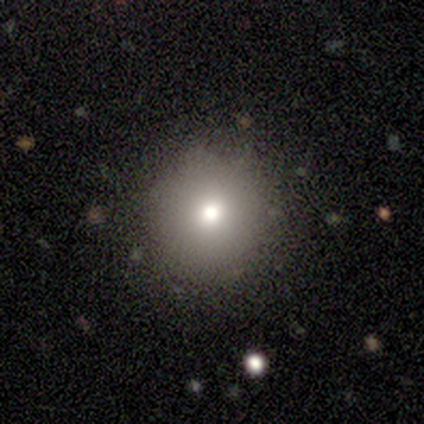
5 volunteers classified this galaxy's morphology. Volunteers were most divided on "smooth or featured": smooth: 60%, star or artifact: 40%, featured or disk: 0%. More confident: how rounded — round (100%); merging — none (100%).